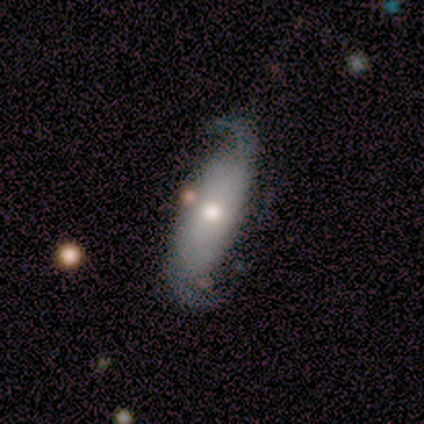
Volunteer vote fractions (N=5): Smooth or featured? featured or disk (100%)
Edge-on disk? no (100%)
Bar? strong (80%)
Spiral arms? yes (100%)
Spiral winding? loose (100%)
Spiral arm count? 2 (80%)
Bulge size? moderate (40%, tied with small)
Merging? none (100%)